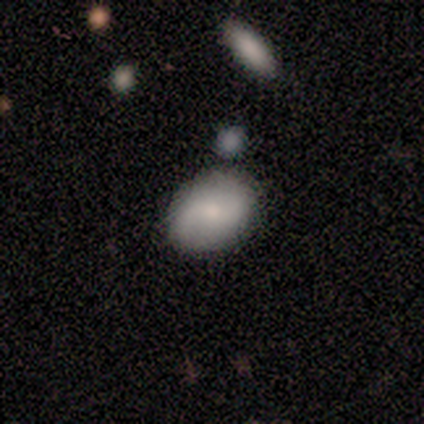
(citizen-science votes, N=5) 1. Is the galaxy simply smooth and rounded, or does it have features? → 60% featured or disk, 40% smooth, 0% star or artifact.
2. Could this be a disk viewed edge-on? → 100% no, 0% yes.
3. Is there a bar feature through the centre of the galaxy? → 100% no, 0% strong, 0% weak.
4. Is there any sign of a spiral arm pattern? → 100% yes, 0% no.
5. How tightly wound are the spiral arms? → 67% loose, 33% tight, 0% medium.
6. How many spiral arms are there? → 100% 2, 0% 1, 0% 3, 0% 4, 0% more than 4, 0% can't tell.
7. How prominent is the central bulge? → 67% small, 33% none, 0% dominant, 0% large, 0% moderate.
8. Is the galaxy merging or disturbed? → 100% none, 0% minor disturbance, 0% major disturbance, 0% merger.